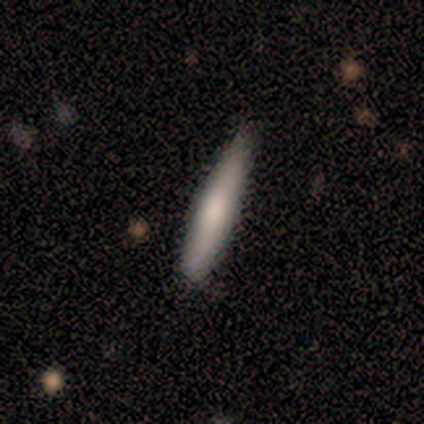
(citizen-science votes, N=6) smooth-or-featured: smooth: 67% | featured or disk: 33% | star or artifact: 0%
  how-rounded: cigar-shaped: 100% | round: 0% | in between: 0%
  merging: none: 83% | minor disturbance: 17% | major disturbance: 0% | merger: 0%